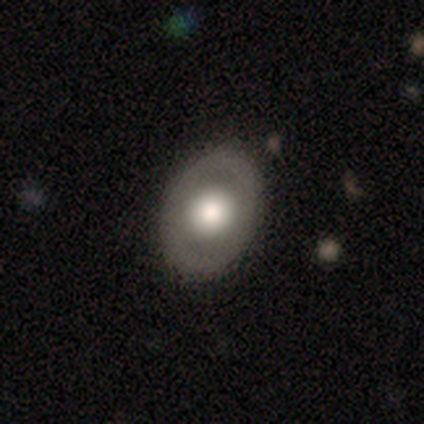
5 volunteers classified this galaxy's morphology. Q: Smooth or featured?
A: smooth (80%); runner-up: featured or disk (20%)
Q: How rounded?
A: in between (75%); runner-up: round (25%)
Q: Merging?
A: none (100%)